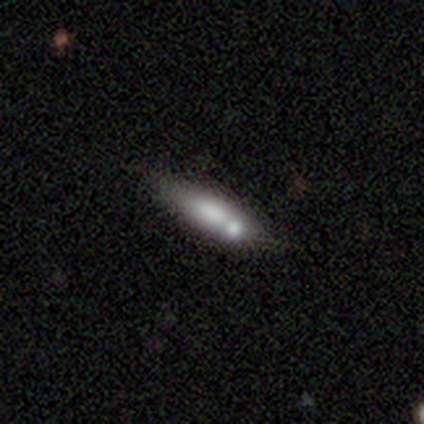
Overall: smooth (80%). How rounded: cigar-shaped (100%). Merging: none (80%).